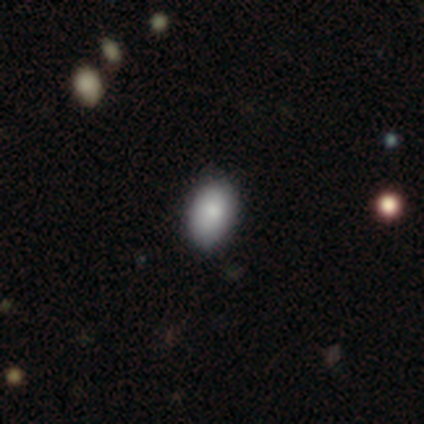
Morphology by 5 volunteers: A smooth galaxy with no disk features (80%) that is in between round and cigar-shaped (100%).

Vote fractions:
- Smooth or featured? smooth: 80% / star or artifact: 20% / featured or disk: 0%
- How rounded? in between: 100% / round: 0% / cigar-shaped: 0%
- Merging? none: 50% (tied) / minor disturbance: 50% (tied) / major disturbance: 0% / merger: 0%